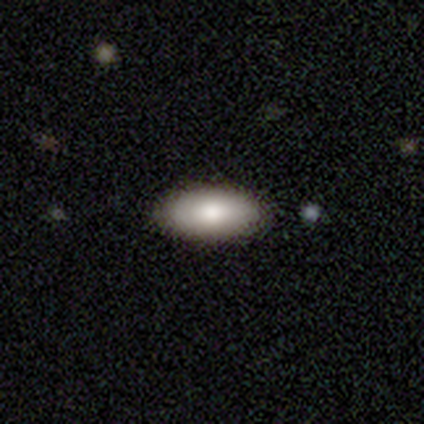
A smooth galaxy with no disk features (85%) that is in between round and cigar-shaped (86%). Merging: none (85%).